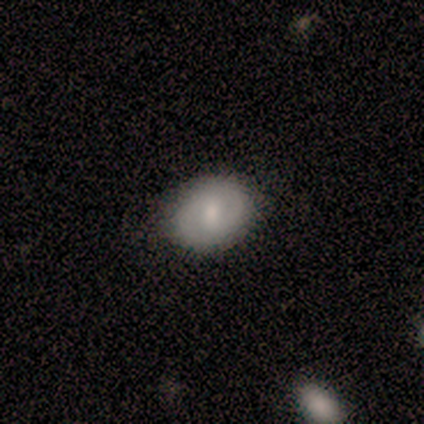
smooth_or_featured: featured or disk (p=0.60) [alt: smooth p=0.40]
disk_edge_on: no (p=1.00)
bar: weak (p=1.00)
has_spiral_arms: yes (p=0.67) [alt: no p=0.33]
spiral_winding: medium (p=1.00)
spiral_arm_count: 2 (p=1.00)
bulge_size: small (p=0.67) [alt: moderate p=0.33]
merging: none (p=0.80) [alt: minor disturbance p=0.20]